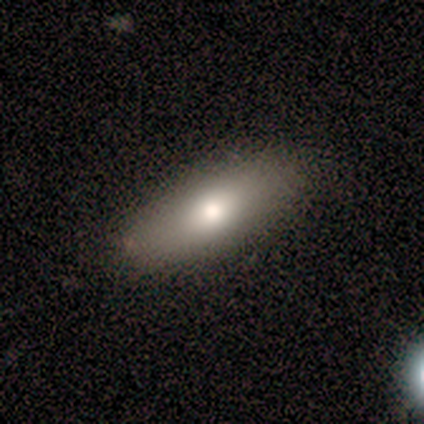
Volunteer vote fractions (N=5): Smooth or featured? 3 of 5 (60%) said smooth. How rounded? 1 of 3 (33%, tied with in between and cigar-shaped) said round. Merging? 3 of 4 (75%) said none.